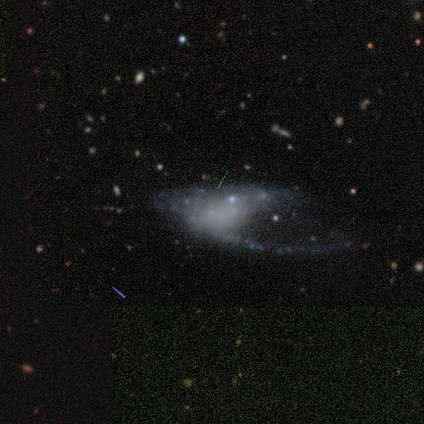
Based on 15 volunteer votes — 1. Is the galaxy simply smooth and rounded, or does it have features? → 53% featured or disk, 33% smooth, 13% star or artifact.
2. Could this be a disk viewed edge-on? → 88% no, 12% yes.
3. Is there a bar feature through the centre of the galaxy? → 100% no, 0% strong, 0% weak.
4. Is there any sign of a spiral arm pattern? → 57% no, 43% yes.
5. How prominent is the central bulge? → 86% none, 14% small, 0% dominant, 0% large, 0% moderate.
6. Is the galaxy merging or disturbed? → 69% major disturbance, 23% merger, 8% none, 0% minor disturbance.